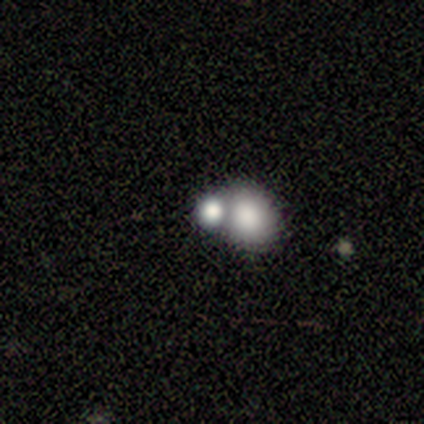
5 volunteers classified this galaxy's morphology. Smooth or featured: smooth — 80% (star or artifact — 20%)
How rounded: round — 75% (in between — 25%)
Merging: merger — 75% (none — 25%)